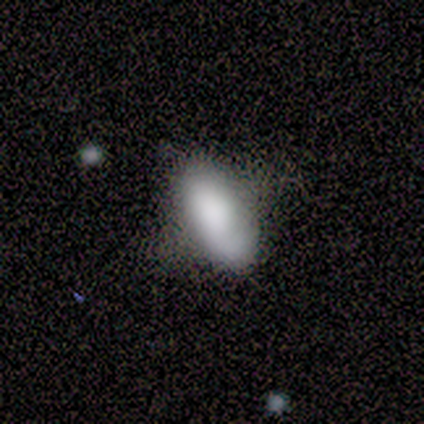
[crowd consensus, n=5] Volunteers were most divided on "smooth or featured": smooth: 80%, featured or disk: 20%, star or artifact: 0%. More confident: how rounded — in between (100%); merging — none (100%).